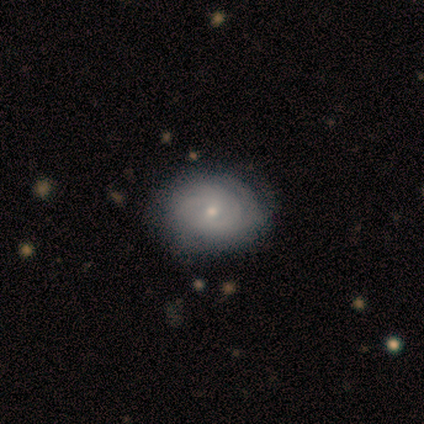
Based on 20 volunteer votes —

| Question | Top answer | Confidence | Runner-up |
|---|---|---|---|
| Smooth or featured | featured or disk | 60% | smooth (35%) |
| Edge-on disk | no | 100% | — |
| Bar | no | 67% | weak (33%) |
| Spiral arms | yes | 83% | no (17%) |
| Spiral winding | tight | 90% | medium (10%) |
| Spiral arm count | can't tell | 60% | 2 (30%) |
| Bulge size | small | 67% | moderate (25%) |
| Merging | none | 53% | minor disturbance (37%) |